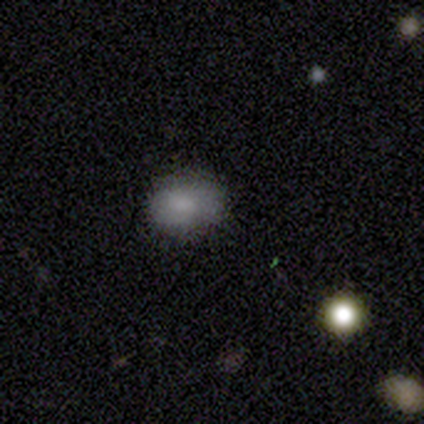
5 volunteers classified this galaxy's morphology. Q: Smooth or featured?
A: smooth (80%); runner-up: star or artifact (20%)
Q: How rounded?
A: in between (75%); runner-up: round (25%)
Q: Merging?
A: none (50%); tied with: major disturbance (50%)